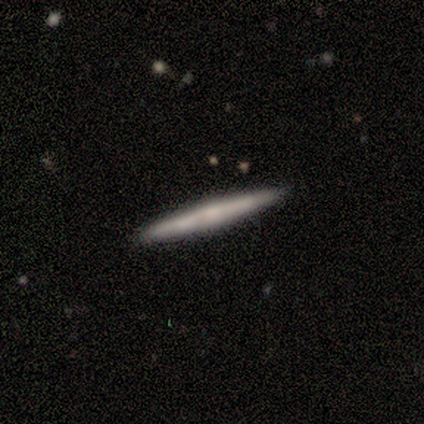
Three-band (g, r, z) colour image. It shows a smooth galaxy with no disk features (80%) that is cigar-shaped (100%). Merging: none (100%).